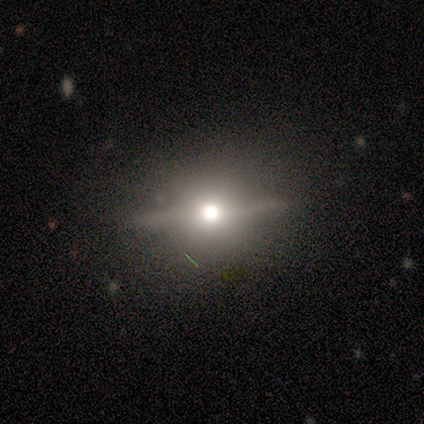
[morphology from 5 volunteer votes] Smooth or featured? featured or disk (80%)
Edge-on disk? yes (75%)
Edge-on bulge? rounded (100%)
Merging? none (100%)